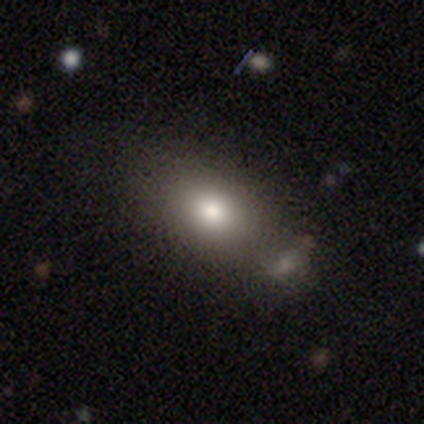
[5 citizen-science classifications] A smooth galaxy with no disk features (80%) that is in between round and cigar-shaped (75%). Merging: none (80%).